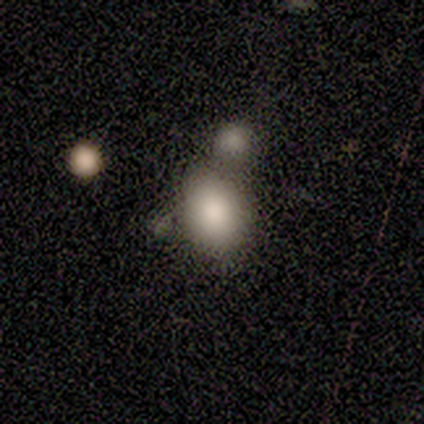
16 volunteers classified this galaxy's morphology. Smooth or featured? 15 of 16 (94%) said smooth. How rounded? 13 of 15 (87%) said in between. Merging? 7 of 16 (44%) said merger.